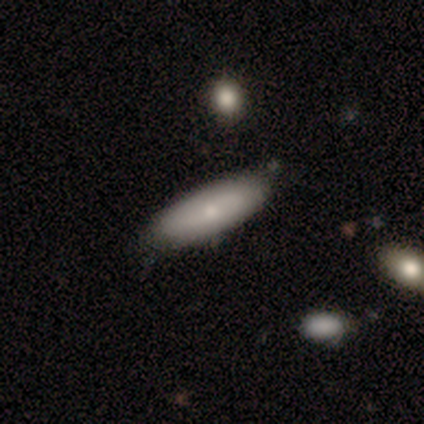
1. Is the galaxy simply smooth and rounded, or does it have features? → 77% smooth, 21% featured or disk, 3% star or artifact.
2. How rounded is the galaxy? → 70% in between, 30% cigar-shaped, 0% round.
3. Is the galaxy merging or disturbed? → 63% none, 16% minor disturbance, 5% major disturbance, 3% merger.